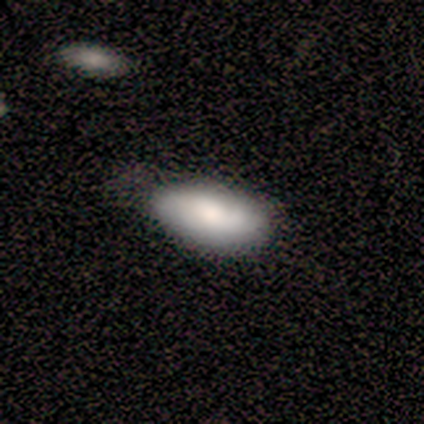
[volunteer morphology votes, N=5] This is likely a featured or disk galaxy (60%). It is clearly not viewed edge-on (100%). Bar: likely no (67%). Spiral arm pattern: clearly yes (100%). Spiral arm count: likely can't tell (67%). Spiral winding: likely medium (67%). Central bulge: likely moderate (67%). Merging: clearly none (80%).